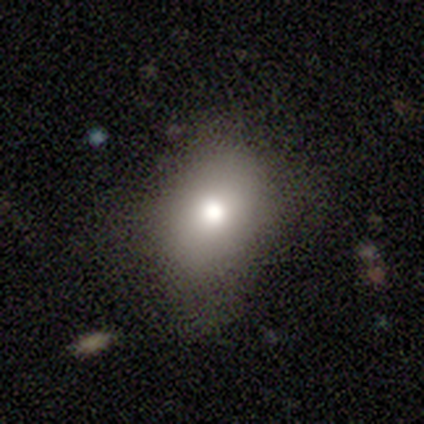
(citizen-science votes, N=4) Morphology: type=smooth (100%); roundness=round (75%); merging=none (100%).